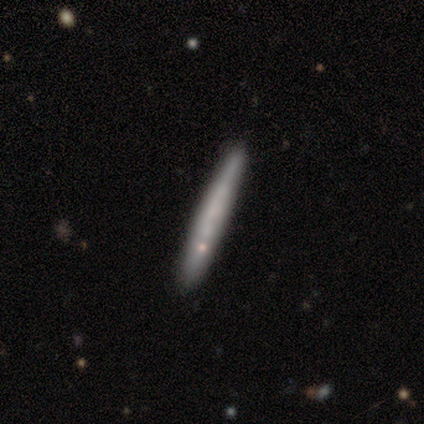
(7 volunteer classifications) Smooth or featured?
  - smooth: 43% * (tied)
  - featured or disk: 43% * (tied)
  - star or artifact: 14%
How rounded?
  - cigar-shaped: 100% *
  - round: 0%
  - in between: 0%
Merging?
  - none: 100% *
  - minor disturbance: 0%
  - major disturbance: 0%
  - merger: 0%